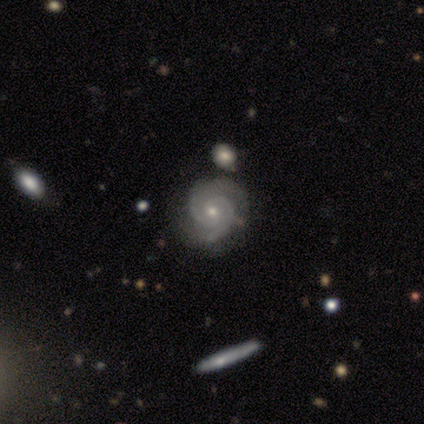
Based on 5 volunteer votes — Smooth or featured?
  - featured or disk: 100% *
  - smooth: 0%
  - star or artifact: 0%
Edge-on disk?
  - no: 80% *
  - yes: 20%
Bar?
  - no: 75% *
  - strong: 25%
  - weak: 0%
Spiral arms?
  - yes: 100% *
  - no: 0%
Spiral winding?
  - tight: 50% * (tied)
  - medium: 50% * (tied)
  - loose: 0%
Spiral arm count?
  - 2: 100% *
  - 1: 0%
  - 3: 0%
  - 4: 0%
  - more than 4: 0%
  - can't tell: 0%
Bulge size?
  - moderate: 50% * (tied)
  - small: 50% * (tied)
  - dominant: 0%
  - large: 0%
  - none: 0%
Merging?
  - none: 80% *
  - minor disturbance: 20%
  - major disturbance: 0%
  - merger: 0%